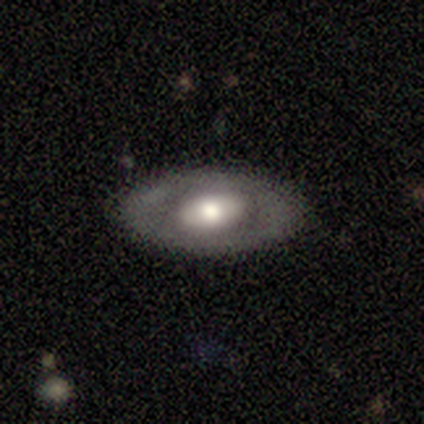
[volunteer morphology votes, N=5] A featured or disk galaxy (60%) with no bar (100%), no spiral arms (100%) and a moderate central bulge (100%). Merging: none (80%).